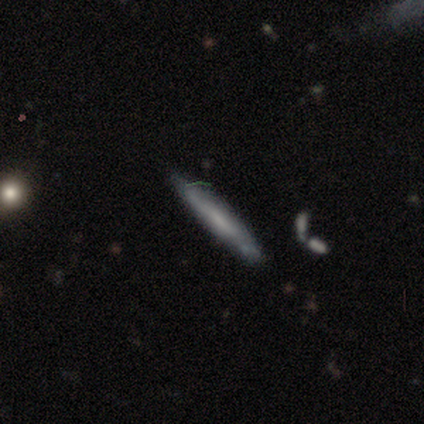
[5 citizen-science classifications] This is likely a featured or disk galaxy (60%). It is likely viewed edge-on (67%). Edge-on bulge: clearly none (100%). Merging: clearly none (100%).